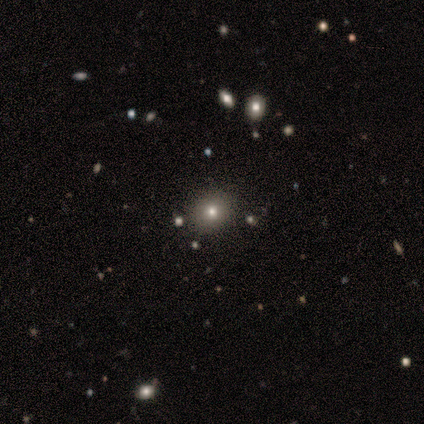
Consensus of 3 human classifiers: A smooth galaxy with no disk features (67%) that is round (50%, tied with in between). Merging: none (100%).